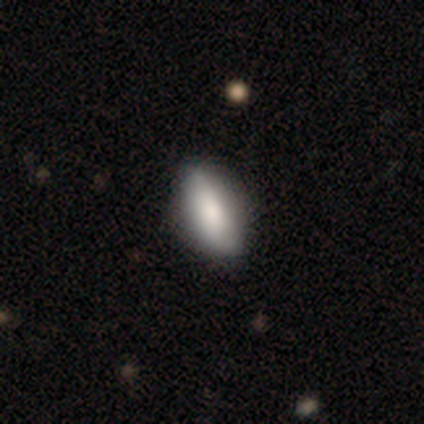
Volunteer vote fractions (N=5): Q: Smooth or featured?
A: smooth (60%); runner-up: featured or disk (20%)
Q: How rounded?
A: in between (67%); runner-up: cigar-shaped (33%)
Q: Merging?
A: none (100%)